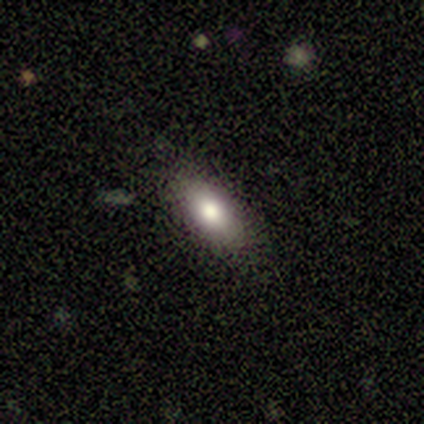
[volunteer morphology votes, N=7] A smooth galaxy with no disk features (100%) that is in between round and cigar-shaped (86%).

Vote fractions:
- Smooth or featured? smooth: 100% / featured or disk: 0% / star or artifact: 0%
- How rounded? in between: 86% / round: 14% / cigar-shaped: 0%
- Merging? none: 100% / minor disturbance: 0% / major disturbance: 0% / merger: 0%